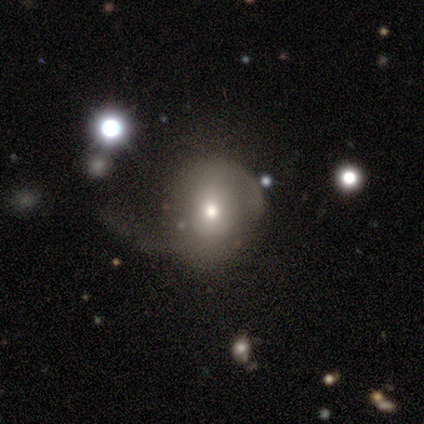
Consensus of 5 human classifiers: A smooth galaxy with no disk features (80%) that is round (100%). Merging: minor disturbance (75%).